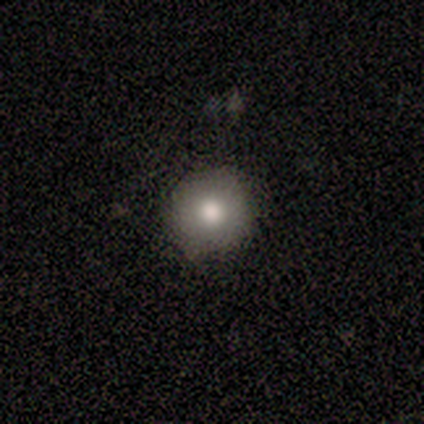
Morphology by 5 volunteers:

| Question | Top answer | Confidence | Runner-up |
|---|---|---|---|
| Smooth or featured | smooth | 100% | — |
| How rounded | round | 100% | — |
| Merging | none | 100% | — |